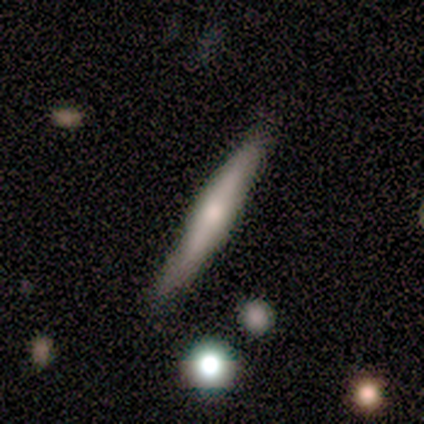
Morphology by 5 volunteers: Smooth or featured? featured or disk (60%)
Edge-on disk? yes (100%)
Edge-on bulge? rounded (100%)
Merging? none (100%)